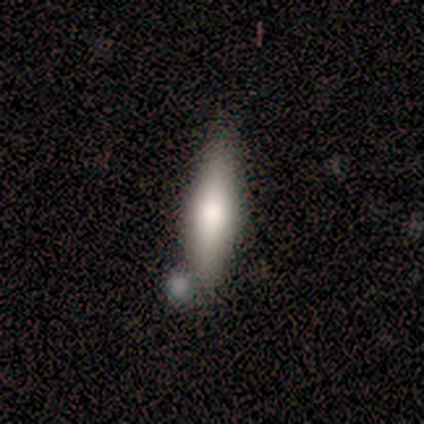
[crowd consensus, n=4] Morphology: type=smooth (75%); roundness=in between (67%); merging=none (75%).